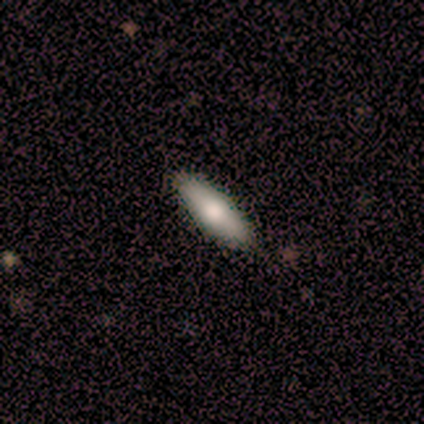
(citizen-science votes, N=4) Morphology: type=smooth (75%); roundness=in between (67%); merging=none (100%).